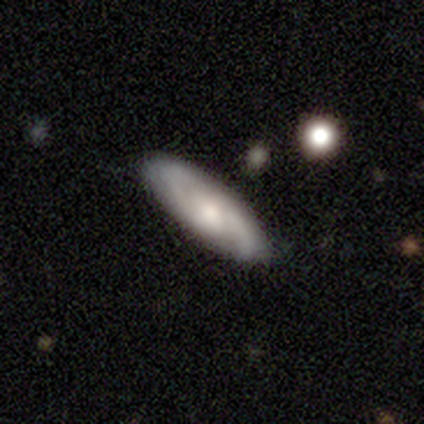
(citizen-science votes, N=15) A featured or disk galaxy (67%) with no bar (62%), 2 (80%) tight (40%, tied with medium) spiral arms (62%) and a moderate central bulge (62%).

Vote fractions:
- Smooth or featured? featured or disk: 67% / smooth: 27% / star or artifact: 7%
- Edge-on disk? no: 80% / yes: 20%
- Bar? no: 62% / weak: 38% / strong: 0%
- Spiral arms? yes: 62% / no: 38%
- Spiral winding? tight: 40% (tied) / medium: 40% (tied) / loose: 20%
- Spiral arm count? 2: 80% / can't tell: 20% / 1: 0% / 3: 0% / 4: 0% / more than 4: 0%
- Bulge size? moderate: 62% / small: 38% / dominant: 0% / large: 0% / none: 0%
- Merging? none: 93% / minor disturbance: 7% / major disturbance: 0% / merger: 0%